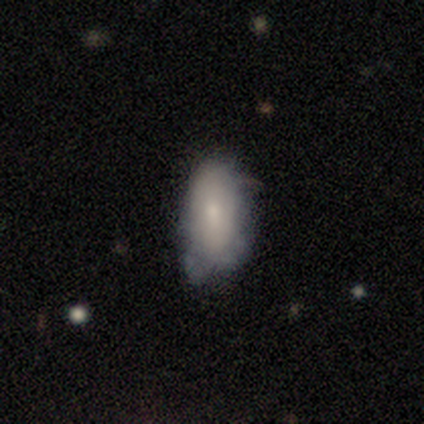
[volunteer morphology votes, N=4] This is likely a smooth galaxy (75%). How rounded: clearly in between (100%). Merging: possibly none (50%, tied with minor disturbance).